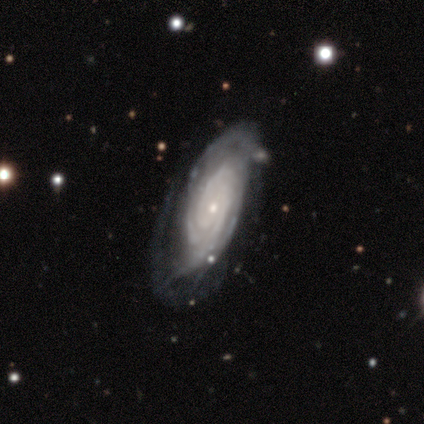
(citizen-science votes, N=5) Smooth or featured: featured or disk — 100%
Edge-on disk: no — 80% (yes — 20%)
Bar: no — 100%
Spiral arms: yes — 75% (no — 25%)
Spiral winding: tight — 100%
Spiral arm count: 3 — 100%
Bulge size: small — 100%
Merging: none — 60% (minor disturbance — 20%)